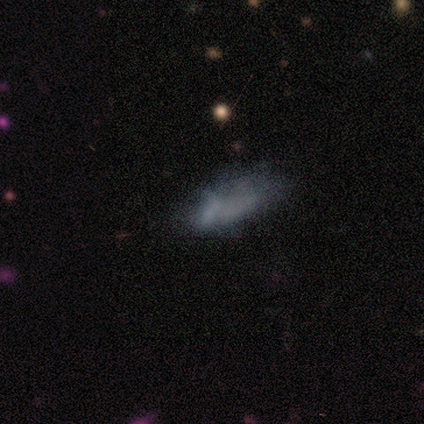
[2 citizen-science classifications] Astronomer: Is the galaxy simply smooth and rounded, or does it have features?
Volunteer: smooth — 100%.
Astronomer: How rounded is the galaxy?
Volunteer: in between — 100%.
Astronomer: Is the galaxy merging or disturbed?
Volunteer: minor disturbance — 100%.